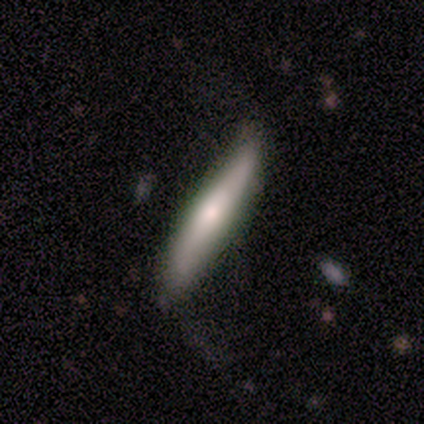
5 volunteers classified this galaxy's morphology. smooth_or_featured: smooth (p=0.40) [tied with: featured or disk p=0.40]
how_rounded: cigar-shaped (p=1.00)
merging: none (p=0.75) [alt: minor disturbance p=0.25]